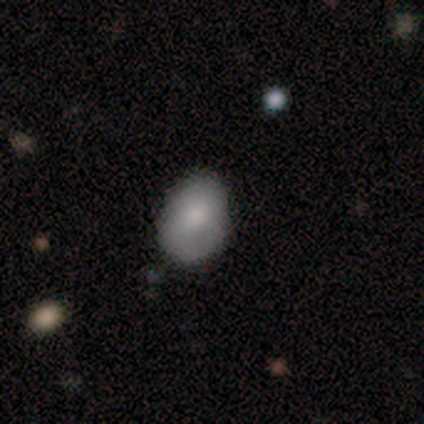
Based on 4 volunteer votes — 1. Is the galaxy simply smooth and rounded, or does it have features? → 75% smooth, 25% featured or disk, 0% star or artifact.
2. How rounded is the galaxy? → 100% in between, 0% round, 0% cigar-shaped.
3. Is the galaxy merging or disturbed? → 100% none, 0% minor disturbance, 0% major disturbance, 0% merger.